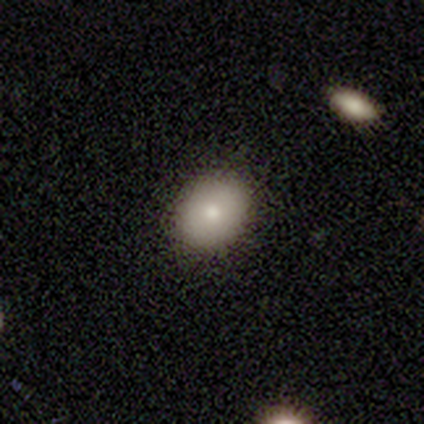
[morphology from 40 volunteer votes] Smooth or featured? 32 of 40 (80%) said smooth. How rounded? 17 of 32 (53%) said in between. Merging? 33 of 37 (89%) said none.